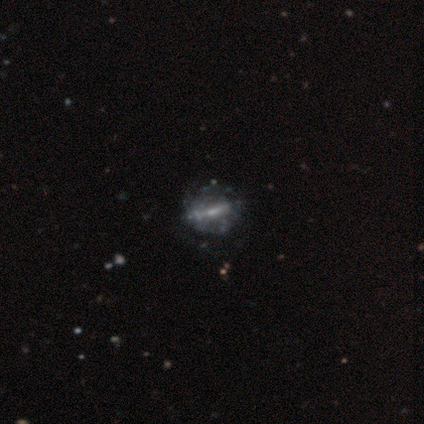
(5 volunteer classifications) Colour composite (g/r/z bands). It shows a featured or disk galaxy (100%) with a strong bar (80%), no spiral arms (60%) and a small central bulge (80%). Merging: minor disturbance (60%).